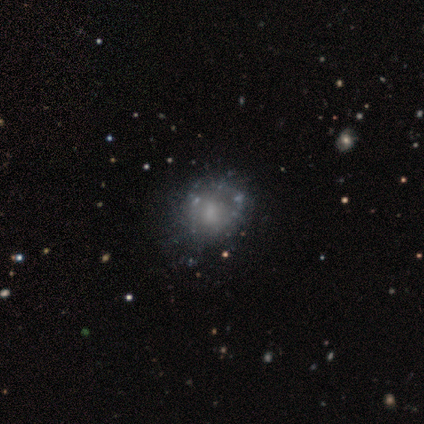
Q: Smooth or featured?
A: featured or disk (60%); runner-up: smooth (25%)
Q: Edge-on disk?
A: no (100%)
Q: Bar?
A: no (79%); runner-up: weak (12%)
Q: Spiral arms?
A: no (67%); runner-up: yes (33%)
Q: Bulge size?
A: small (50%); runner-up: none (38%)
Q: Merging?
A: none (53%); runner-up: minor disturbance (12%)